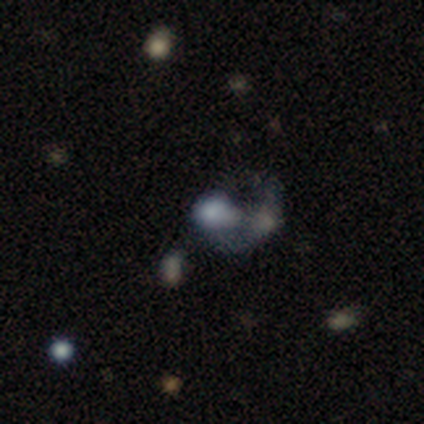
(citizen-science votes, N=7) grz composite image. It shows a featured or disk galaxy (57%) with no bar (100%), no spiral arms (100%) and no central bulge (50%). Merging: merger (83%).